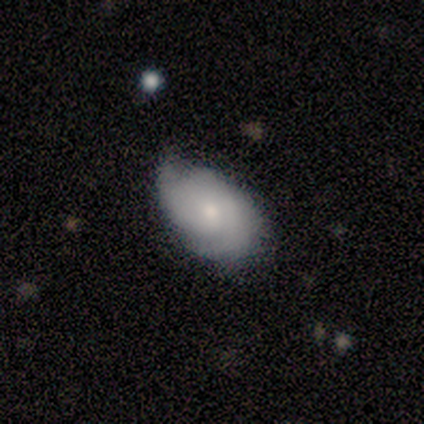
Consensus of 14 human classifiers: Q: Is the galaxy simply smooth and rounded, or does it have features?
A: featured or disk — 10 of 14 (71%).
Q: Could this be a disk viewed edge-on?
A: no — 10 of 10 (100%).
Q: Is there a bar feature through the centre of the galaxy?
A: no — 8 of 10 (80%).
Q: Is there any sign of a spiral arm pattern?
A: yes — 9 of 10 (90%).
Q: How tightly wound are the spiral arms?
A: tight — 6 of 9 (67%).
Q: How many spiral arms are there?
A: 2 — 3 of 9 (33%, tied with can't tell).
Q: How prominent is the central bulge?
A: moderate — 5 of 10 (50%).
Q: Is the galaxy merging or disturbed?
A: none — 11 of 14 (79%).